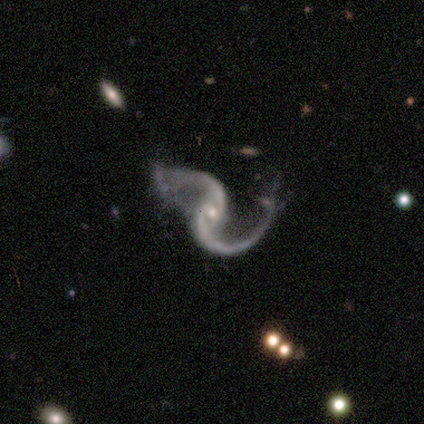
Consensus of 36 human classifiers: Q: Smooth or featured?
A: featured or disk (97%); runner-up: smooth (3%)
Q: Edge-on disk?
A: no (100%)
Q: Bar?
A: no (46%); runner-up: weak (37%)
Q: Spiral arms?
A: yes (100%)
Q: Spiral winding?
A: loose (74%); runner-up: medium (26%)
Q: Spiral arm count?
A: 2 (100%)
Q: Bulge size?
A: small (83%); runner-up: moderate (14%)
Q: Merging?
A: none (36%); runner-up: major disturbance (31%)